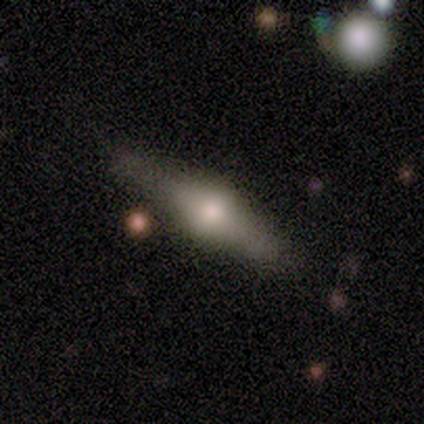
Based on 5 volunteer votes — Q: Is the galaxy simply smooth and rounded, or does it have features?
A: featured or disk — 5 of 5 (100%).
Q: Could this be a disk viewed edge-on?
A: yes — 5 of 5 (100%).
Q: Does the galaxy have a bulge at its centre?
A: rounded — 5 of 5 (100%).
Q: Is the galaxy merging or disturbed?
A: none — 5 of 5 (100%).